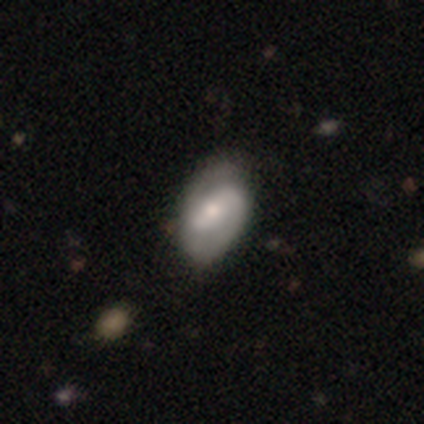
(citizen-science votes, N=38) Smooth or featured?
  - featured or disk: 74% *
  - smooth: 24%
  - star or artifact: 3%
Edge-on disk?
  - no: 96% *
  - yes: 4%
Bar?
  - weak: 56% *
  - no: 26%
  - strong: 19%
Spiral arms?
  - yes: 89% *
  - no: 11%
Spiral winding?
  - tight: 38% *
  - medium: 33%
  - loose: 29%
Spiral arm count?
  - 2: 75% *
  - 1: 12%
  - can't tell: 12%
  - 3: 0%
  - 4: 0%
  - more than 4: 0%
Bulge size?
  - small: 63% *
  - moderate: 30%
  - large: 4%
  - none: 4%
  - dominant: 0%
Merging?
  - none: 70% *
  - minor disturbance: 24%
  - merger: 5%
  - major disturbance: 0%